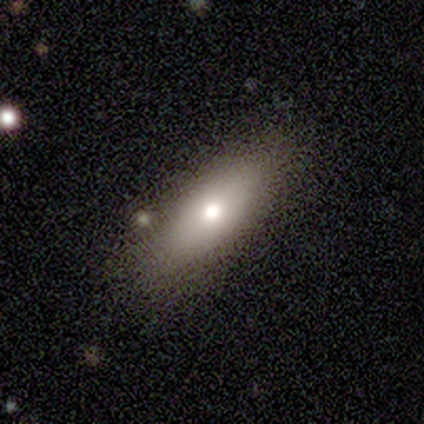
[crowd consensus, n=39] This appears to be a smooth galaxy with no disk features (69%) that is in between round and cigar-shaped (67%). Merging: none (82%).